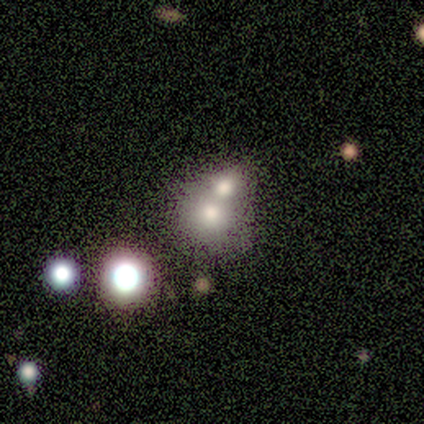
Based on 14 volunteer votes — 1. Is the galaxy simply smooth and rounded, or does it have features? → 43% smooth, 36% featured or disk, 21% star or artifact.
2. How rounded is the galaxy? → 100% round, 0% in between, 0% cigar-shaped.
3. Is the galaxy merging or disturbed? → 91% merger, 9% minor disturbance, 0% none, 0% major disturbance.